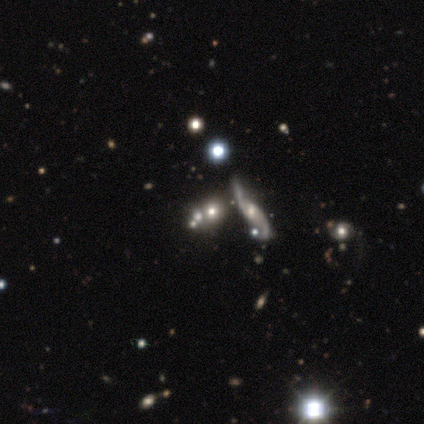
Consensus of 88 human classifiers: A featured or disk galaxy (44%) with no bar (58%), 2 (94%) loose (89%) spiral arms (75%) and a moderate central bulge (38%, tied with small). Merging: none (42%).